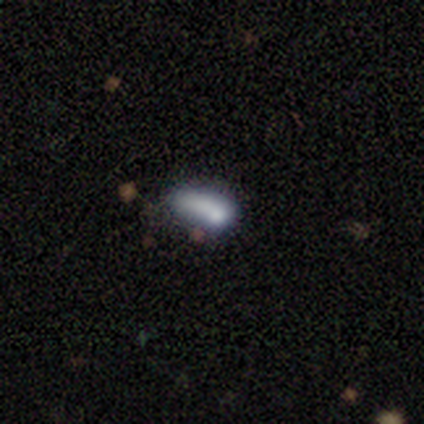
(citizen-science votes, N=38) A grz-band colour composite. It shows a smooth galaxy with no disk features (58%) that is in between round and cigar-shaped (68%). Merging: minor disturbance (44%).